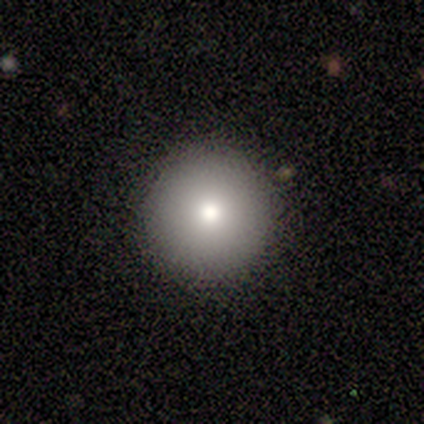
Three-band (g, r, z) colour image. It shows a smooth galaxy with no disk features (71%) that is round (97%). Merging: none (90%).